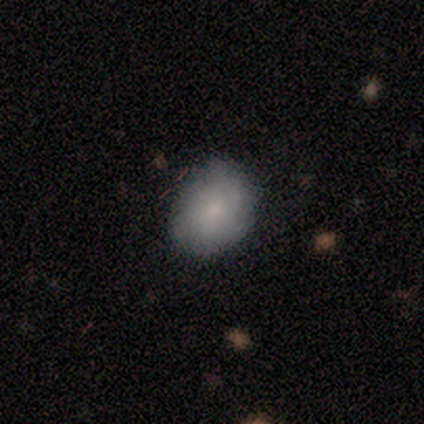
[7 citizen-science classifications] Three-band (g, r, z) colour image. It shows a smooth galaxy with no disk features (71%) that is in between round and cigar-shaped (60%). Merging: none (86%).